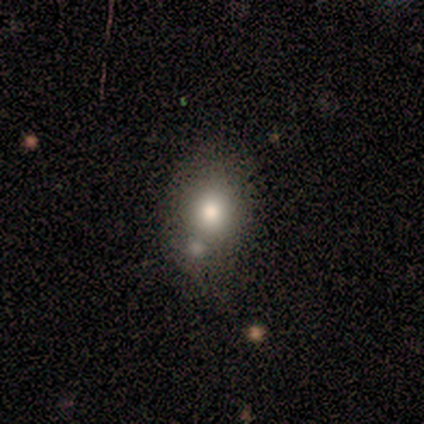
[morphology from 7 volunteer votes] smooth-or-featured: smooth: 71% | featured or disk: 14% | star or artifact: 14%
  how-rounded: in between: 80% | round: 20% | cigar-shaped: 0%
  merging: none: 33% (tied) | merger: 33% (tied) | minor disturbance: 17% | major disturbance: 17%